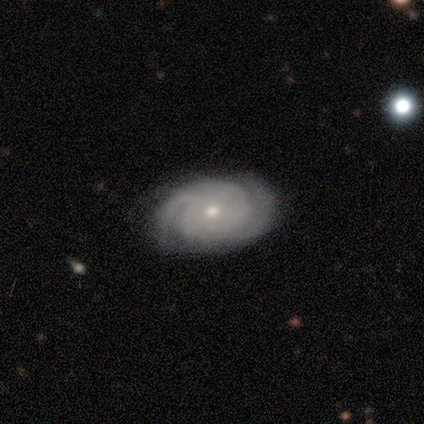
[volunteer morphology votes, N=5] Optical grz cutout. It shows a featured or disk galaxy (100%) with no bar (80%), 3 (40%, tied with can't tell) tight (100%) spiral arms (100%) and a small central bulge (80%). Merging: none (80%).